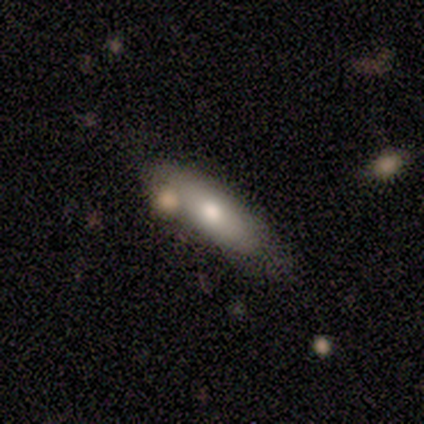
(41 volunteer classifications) Smooth or featured?
  - smooth: 61% *
  - featured or disk: 32%
  - star or artifact: 7%
How rounded?
  - in between: 84% *
  - cigar-shaped: 16%
  - round: 0%
Merging?
  - none: 71% *
  - minor disturbance: 16%
  - merger: 13%
  - major disturbance: 0%